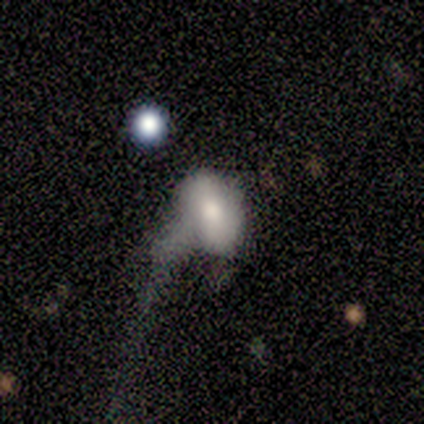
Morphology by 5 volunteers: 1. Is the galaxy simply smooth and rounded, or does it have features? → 60% smooth, 40% featured or disk, 0% star or artifact.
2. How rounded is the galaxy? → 100% in between, 0% round, 0% cigar-shaped.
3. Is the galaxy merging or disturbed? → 80% major disturbance, 20% none, 0% minor disturbance, 0% merger.